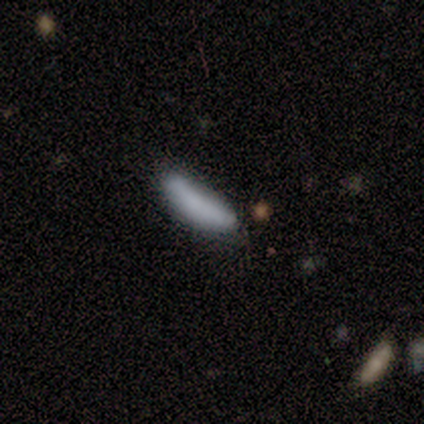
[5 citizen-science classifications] A smooth galaxy with no disk features (80%) that is in between round and cigar-shaped (50%, tied with cigar-shaped). Merging: minor disturbance (60%).